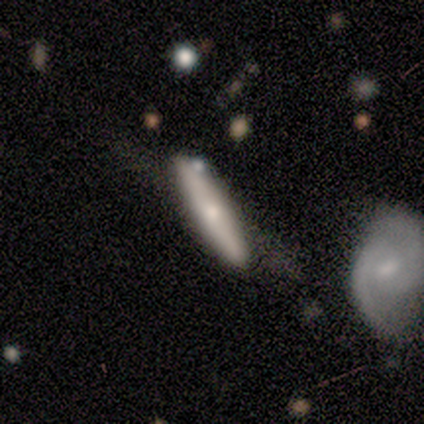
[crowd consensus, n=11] Smooth or featured? smooth (45%, tied with featured or disk)
How rounded? cigar-shaped (80%)
Merging? none (40%, tied with minor disturbance)